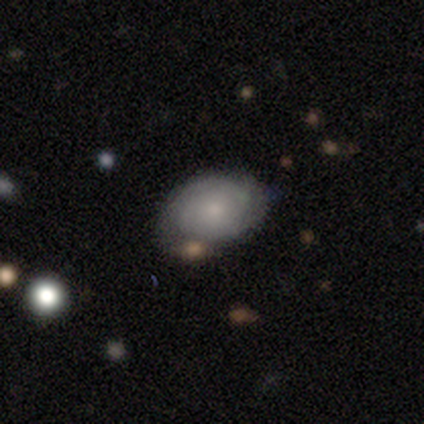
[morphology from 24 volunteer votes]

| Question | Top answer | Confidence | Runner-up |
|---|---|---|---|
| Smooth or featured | featured or disk | 50% | smooth (46%) |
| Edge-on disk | no | 100% | — |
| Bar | no | 83% | weak (17%) |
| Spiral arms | yes | 75% | no (25%) |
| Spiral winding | tight | 89% | loose (11%) |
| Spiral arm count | can't tell | 56% | 2 (22%) |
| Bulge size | small | 67% | moderate (25%) |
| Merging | none | 65% | minor disturbance (26%) |